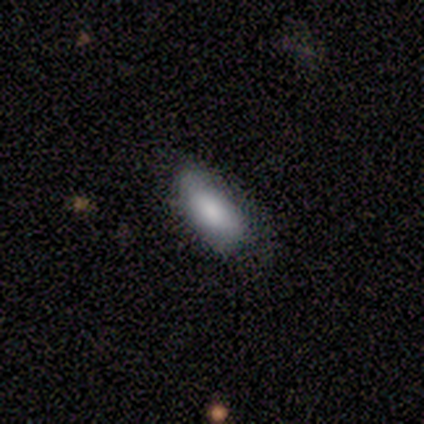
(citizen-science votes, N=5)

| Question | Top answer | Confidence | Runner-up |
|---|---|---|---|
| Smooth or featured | smooth | 100% | — |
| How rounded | in between | 100% | — |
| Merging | none | 60% | minor disturbance (40%) |